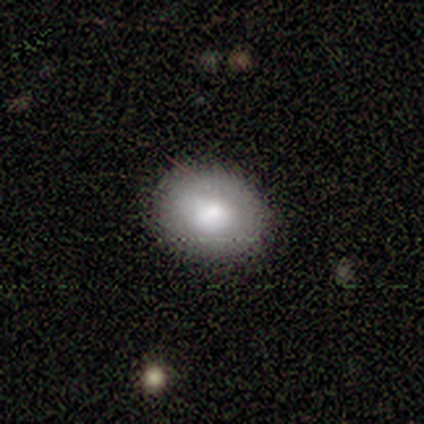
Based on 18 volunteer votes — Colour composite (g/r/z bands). It shows a smooth galaxy with no disk features (89%) that is in between round and cigar-shaped (62%). Merging: none (78%).